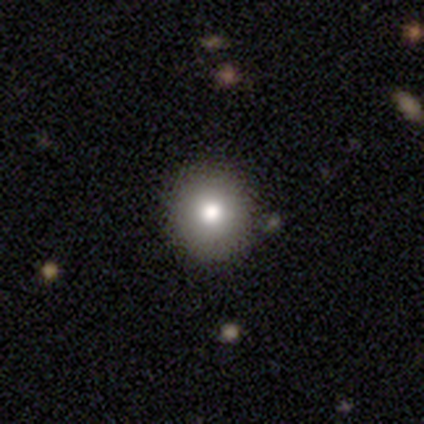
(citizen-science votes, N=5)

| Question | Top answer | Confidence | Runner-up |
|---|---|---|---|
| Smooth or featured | smooth | 80% | star or artifact (20%) |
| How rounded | round | 100% | — |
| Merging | none | 100% | — |